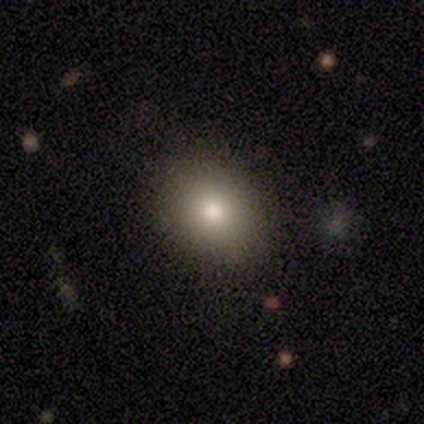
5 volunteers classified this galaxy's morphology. Smooth or featured? 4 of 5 (80%) said smooth. How rounded? 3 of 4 (75%) said in between. Merging? 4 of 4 (100%) said none.